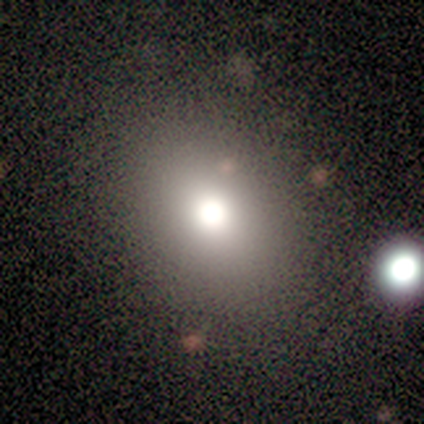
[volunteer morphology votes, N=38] Smooth or featured? 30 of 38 (79%) said smooth. How rounded? 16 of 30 (53%) said in between. Merging? 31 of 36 (86%) said none.